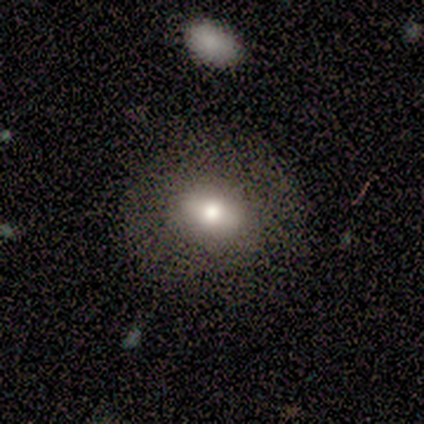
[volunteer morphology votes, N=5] smooth 60%, featured or disk 40%, star or artifact 0%. Down the decision tree: how rounded — in between (67%); merging — none (100%).